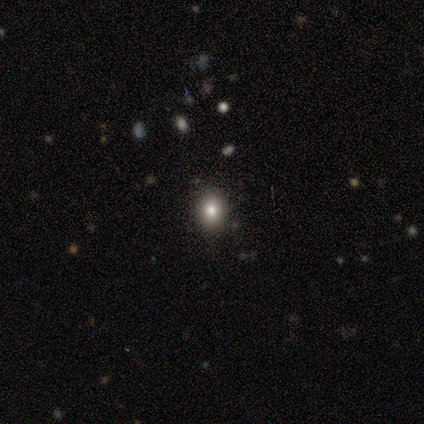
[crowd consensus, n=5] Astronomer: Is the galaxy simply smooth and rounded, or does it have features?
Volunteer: smooth — 100%.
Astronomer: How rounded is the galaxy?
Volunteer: in between — 60% (runner-up: round, 40%).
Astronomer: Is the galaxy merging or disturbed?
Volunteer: none — 100%.